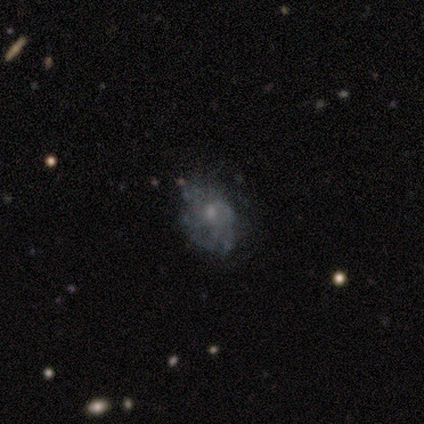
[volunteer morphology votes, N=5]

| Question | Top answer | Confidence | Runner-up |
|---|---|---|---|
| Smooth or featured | featured or disk | 60% | smooth (20%) |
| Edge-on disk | no | 100% | — |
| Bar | no | 100% | — |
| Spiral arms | yes | 67% | no (33%) |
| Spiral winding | tight | 50% | tied: medium (50%) |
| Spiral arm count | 4 | 50% | tied: can't tell (50%) |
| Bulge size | small | 67% | moderate (33%) |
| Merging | none | 100% | — |